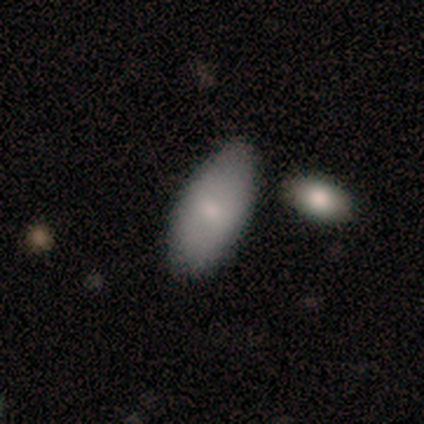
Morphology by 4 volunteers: Consensus on every question: smooth or featured — smooth (100%); how rounded — in between (100%); merging — none (100%).